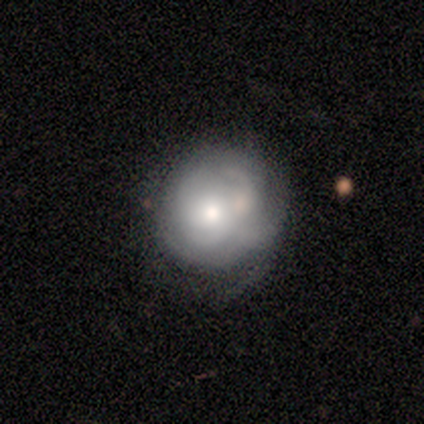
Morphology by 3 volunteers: smooth_or_featured: featured or disk (p=0.67) [alt: smooth p=0.33]
disk_edge_on: no (p=1.00)
bar: no (p=1.00)
has_spiral_arms: yes (p=0.50) [tied with: no p=0.50]
spiral_winding: medium (p=1.00)
spiral_arm_count: can't tell (p=1.00)
bulge_size: dominant (p=0.50) [tied with: large p=0.50]
merging: none (p=0.33) [tied with: minor disturbance p=0.33, merger p=0.33]